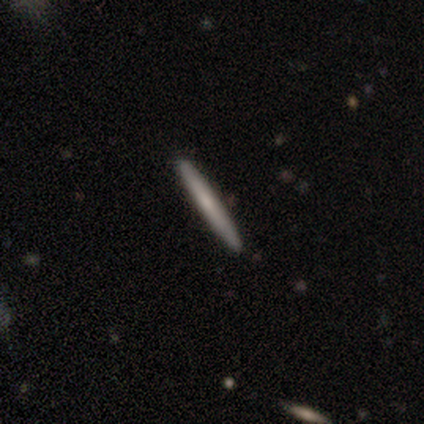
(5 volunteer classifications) Morphology: type=smooth (40%, tied with featured or disk); roundness=cigar-shaped (100%); merging=none (100%).